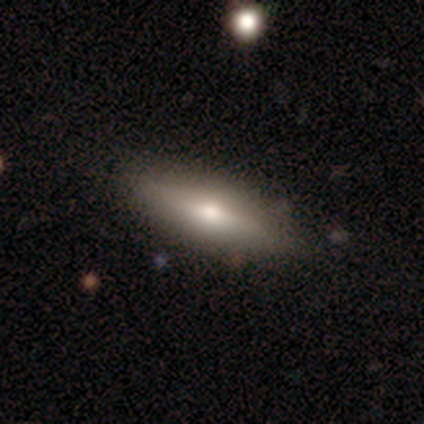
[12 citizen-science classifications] Smooth or featured: smooth — 58% (featured or disk — 33%)
How rounded: cigar-shaped — 86% (in between — 14%)
Merging: none — 82% (minor disturbance — 18%)